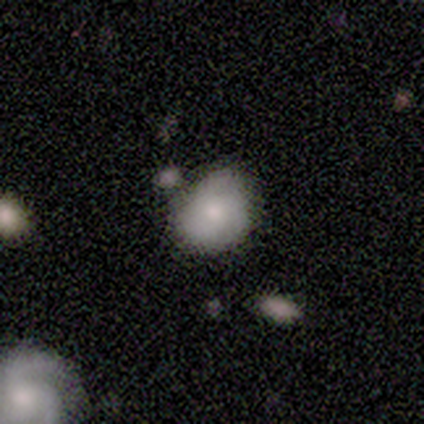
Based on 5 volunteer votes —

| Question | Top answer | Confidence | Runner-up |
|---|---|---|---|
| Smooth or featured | smooth | 60% | featured or disk (20%) |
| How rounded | in between | 67% | round (33%) |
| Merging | none | 50% | minor disturbance (25%) |